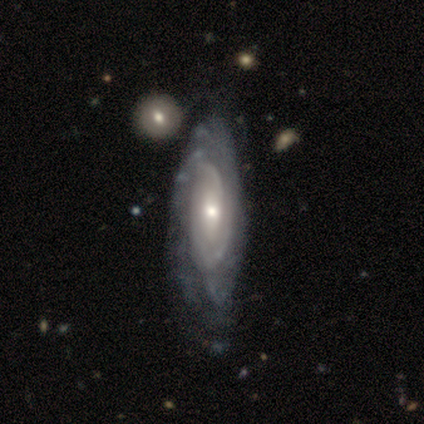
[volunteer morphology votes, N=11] featured or disk 100%, smooth 0%, star or artifact 0%. Down the decision tree: edge-on disk — no (91%); bar — no (50%); spiral arms — yes (100%); spiral arm count — 2 (40%, tied with can't tell); spiral winding — tight (90%); bulge size — moderate (70%); merging — none (64%).